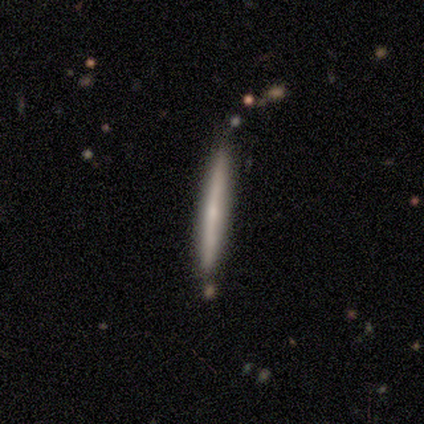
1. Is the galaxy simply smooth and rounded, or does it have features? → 80% smooth, 20% star or artifact, 0% featured or disk.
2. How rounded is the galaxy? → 100% cigar-shaped, 0% round, 0% in between.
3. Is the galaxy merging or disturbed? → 50% none (tied), 50% minor disturbance (tied), 0% major disturbance, 0% merger.